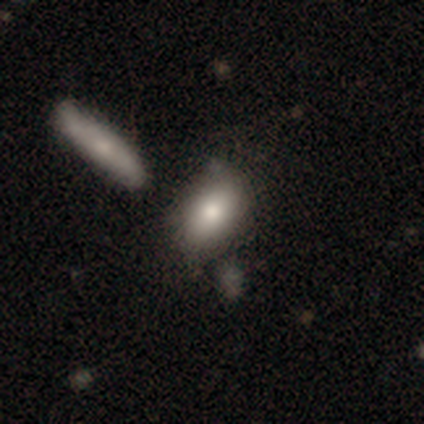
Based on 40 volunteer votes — A smooth galaxy with no disk features (68%) that is in between round and cigar-shaped (89%).

Vote fractions:
- Smooth or featured? smooth: 68% / featured or disk: 22% / star or artifact: 10%
- How rounded? in between: 89% / cigar-shaped: 11% / round: 0%
- Merging? none: 53% / merger: 22% / minor disturbance: 19% / major disturbance: 6%